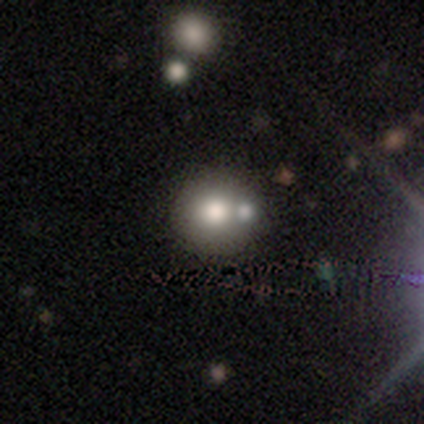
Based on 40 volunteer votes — Volunteers were most divided on "smooth or featured": smooth: 70%, featured or disk: 25%, star or artifact: 5%. More confident: how rounded — round (96%); merging — none (71%).